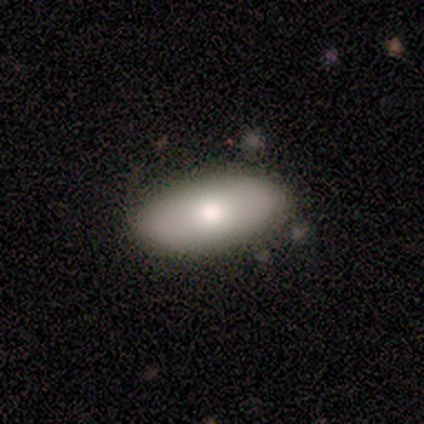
Smooth or featured? smooth (60%)
How rounded? in between (100%)
Merging? none (100%)